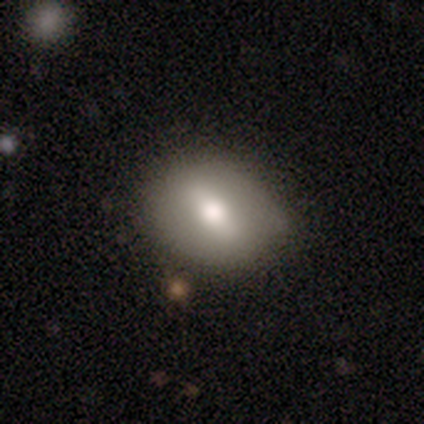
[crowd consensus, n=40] Morphology: type=smooth (62%); roundness=in between (64%); merging=none (78%).